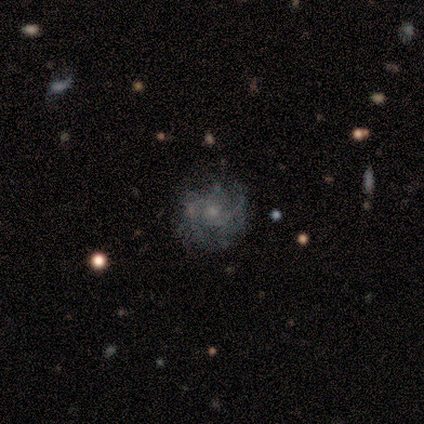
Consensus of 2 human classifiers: Q: Smooth or featured?
A: featured or disk (100%)
Q: Edge-on disk?
A: no (100%)
Q: Bar?
A: weak (50%); tied with: no (50%)
Q: Spiral arms?
A: yes (100%)
Q: Spiral winding?
A: loose (100%)
Q: Spiral arm count?
A: 2 (50%); tied with: can't tell (50%)
Q: Bulge size?
A: moderate (100%)
Q: Merging?
A: none (100%)